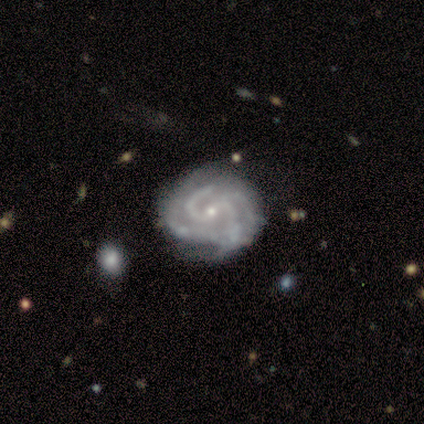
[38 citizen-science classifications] Smooth or featured?
  - featured or disk: 95% *
  - smooth: 3%
  - star or artifact: 3%
Edge-on disk?
  - no: 100% *
  - yes: 0%
Bar?
  - no: 47% *
  - weak: 36%
  - strong: 17%
Spiral arms?
  - yes: 97% *
  - no: 3%
Spiral winding?
  - tight: 51% *
  - medium: 43%
  - loose: 6%
Spiral arm count?
  - 4: 31% *
  - 2: 29%
  - 3: 29%
  - can't tell: 11%
  - 1: 0%
  - more than 4: 0%
Bulge size?
  - small: 86% *
  - moderate: 11%
  - none: 3%
  - dominant: 0%
  - large: 0%
Merging?
  - none: 65% *
  - minor disturbance: 27%
  - major disturbance: 5%
  - merger: 3%